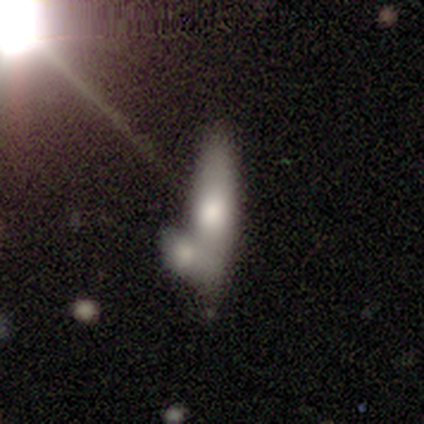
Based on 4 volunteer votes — A smooth galaxy with no disk features (75%) that is cigar-shaped (67%).

Vote fractions:
- Smooth or featured? smooth: 75% / featured or disk: 25% / star or artifact: 0%
- How rounded? cigar-shaped: 67% / in between: 33% / round: 0%
- Merging? none: 50% (tied) / merger: 50% (tied) / minor disturbance: 0% / major disturbance: 0%